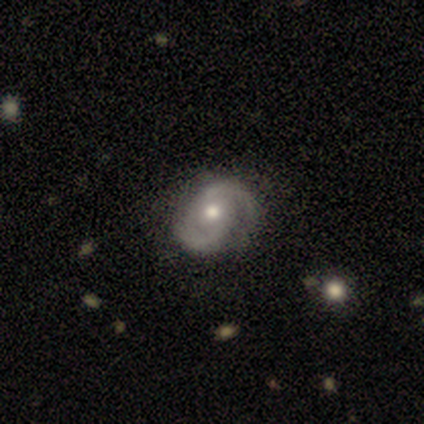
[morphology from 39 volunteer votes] smooth-or-featured: featured or disk: 90% | smooth: 10% | star or artifact: 0%
  disk-edge-on: no: 97% | yes: 3%
    bar: no: 71% | weak: 29% | strong: 0%
    has-spiral-arms: yes: 100% | no: 0%
      spiral-winding: medium: 47% | tight: 41% | loose: 12%
      spiral-arm-count: 2: 91% | can't tell: 9% | 1: 0% | 3: 0% | 4: 0% | more than 4: 0%
    bulge-size: moderate: 88% | small: 9% | large: 3% | dominant: 0% | none: 0%
  merging: none: 56% | minor disturbance: 13% | major disturbance: 5% | merger: 5%